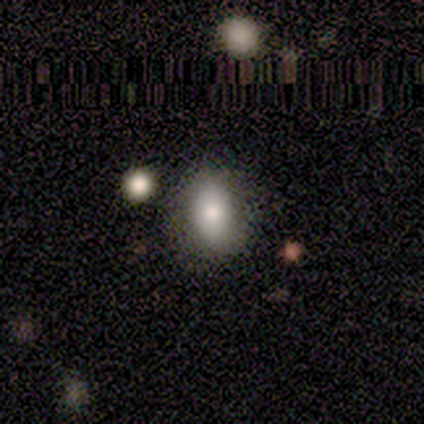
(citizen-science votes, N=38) A smooth galaxy with no disk features (82%) that is in between round and cigar-shaped (68%). Merging: none (78%).